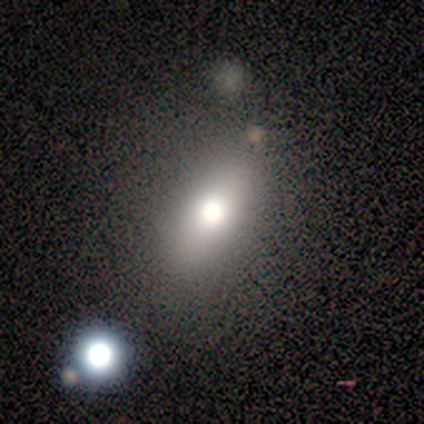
Smooth or featured? 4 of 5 (80%) said smooth. How rounded? 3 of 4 (75%) said in between. Merging? 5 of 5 (100%) said none.